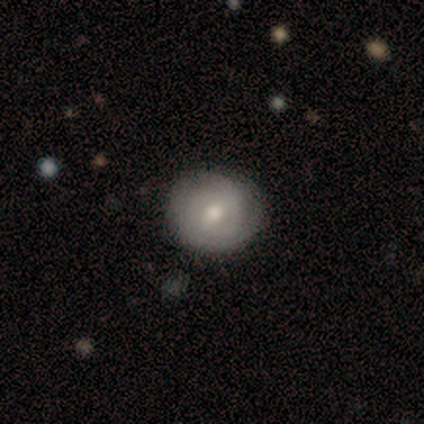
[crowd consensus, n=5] Smooth or featured?
  - smooth: 60% *
  - featured or disk: 20%
  - star or artifact: 20%
How rounded?
  - round: 100% *
  - in between: 0%
  - cigar-shaped: 0%
Merging?
  - none: 100% *
  - minor disturbance: 0%
  - major disturbance: 0%
  - merger: 0%